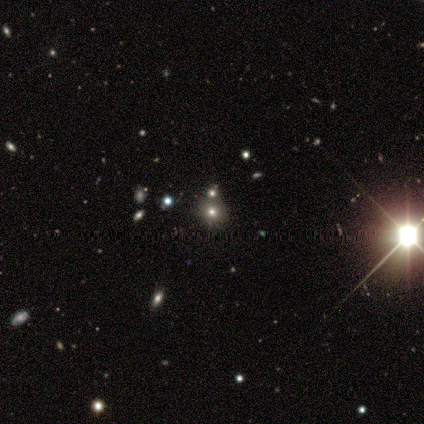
Smooth or featured? star or artifact (60%)